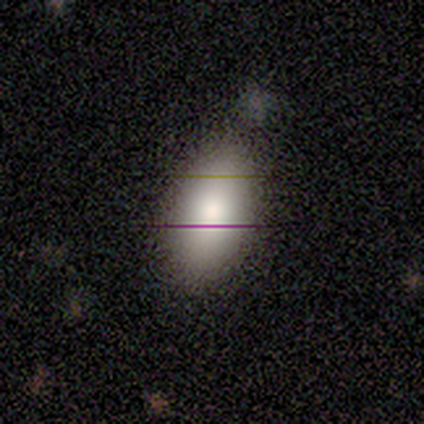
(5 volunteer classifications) smooth 100%, featured or disk 0%, star or artifact 0%. Down the decision tree: how rounded — in between (100%); merging — none (60%).